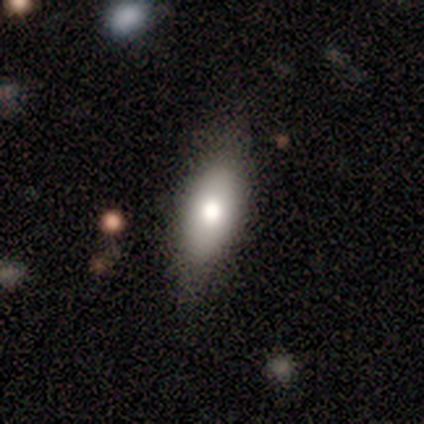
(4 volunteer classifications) Morphology: type=smooth (75%); roundness=in between (67%); merging=none (50%, tied with major disturbance).